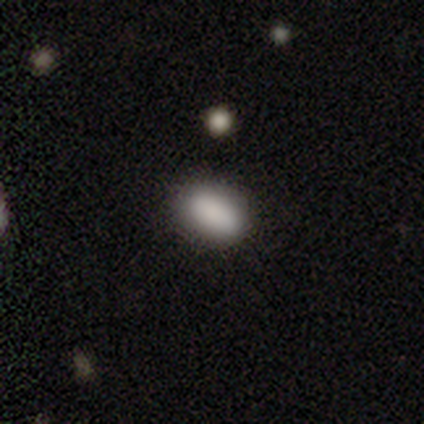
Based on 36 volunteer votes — Smooth or featured?
  - smooth: 89% *
  - star or artifact: 8%
  - featured or disk: 3%
How rounded?
  - in between: 91% *
  - round: 6%
  - cigar-shaped: 3%
Merging?
  - none: 85% *
  - minor disturbance: 9%
  - merger: 6%
  - major disturbance: 0%